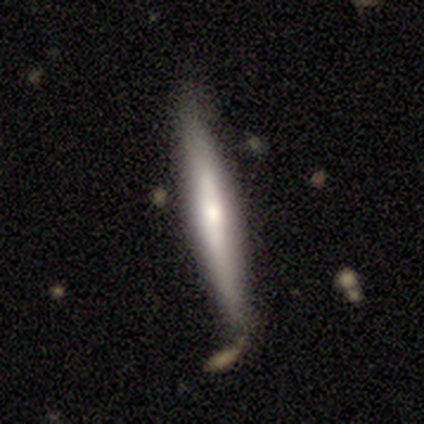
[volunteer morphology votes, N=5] Overall: featured or disk (80%). Edge-on disk: yes (100%). Edge-on bulge: rounded (100%). Merging: minor disturbance (80%).